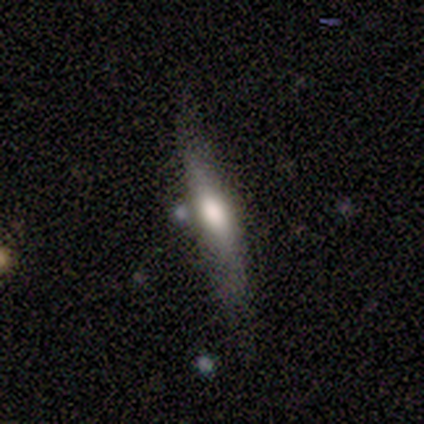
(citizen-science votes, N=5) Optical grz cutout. It shows a featured or disk galaxy (60%) viewed edge-on (100%) with a rounded central bulge (67%). Merging: none (100%).